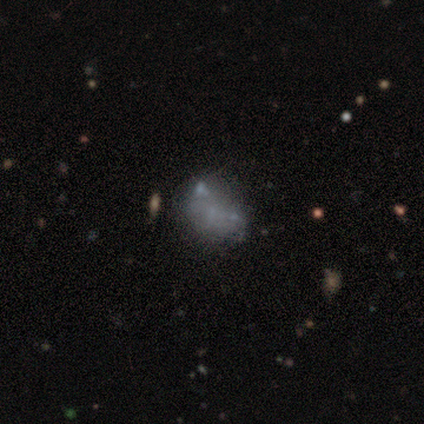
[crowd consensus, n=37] Smooth or featured? featured or disk (54%)
Edge-on disk? no (100%)
Bar? no (100%)
Spiral arms? no (100%)
Bulge size? none (85%)
Merging? none (45%)